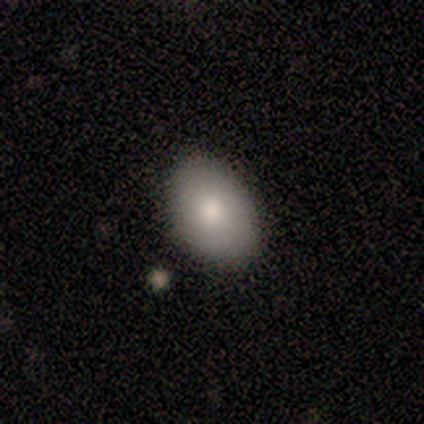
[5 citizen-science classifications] Smooth or featured? smooth (80%)
How rounded? in between (75%)
Merging? none (80%)